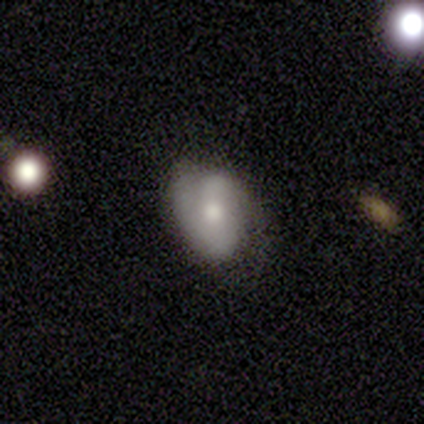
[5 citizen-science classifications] smooth_or_featured: featured or disk (p=0.80) [alt: smooth p=0.20]
disk_edge_on: no (p=1.00)
bar: strong (p=0.50) [alt: weak p=0.25]
has_spiral_arms: yes (p=1.00)
spiral_winding: tight (p=0.50) [alt: medium p=0.25]
spiral_arm_count: 2 (p=1.00)
bulge_size: moderate (p=1.00)
merging: none (p=0.40) [tied with: minor disturbance p=0.40]